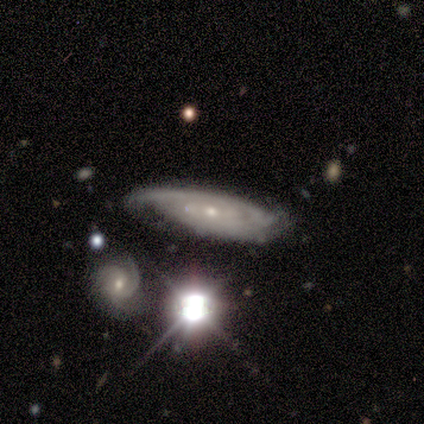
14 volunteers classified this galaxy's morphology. Overall: featured or disk (86%). Edge-on disk: no (100%). Bar: no (58%; weak 33%). Spiral arms: yes (100%). Spiral arm count: can't tell (42%; 2 25%). Spiral winding: tight (67%). Bulge size: small (75%). Merging: none (36%, tied with minor disturbance).